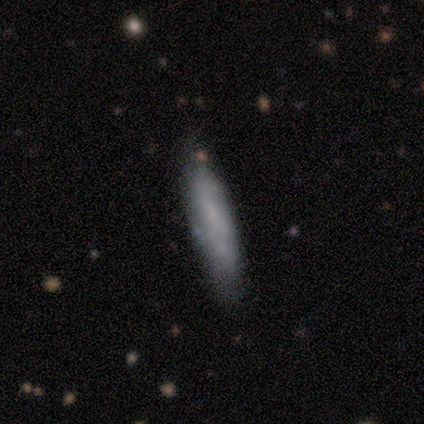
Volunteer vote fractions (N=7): smooth 43% (tied), featured or disk 43% (tied), star or artifact 14%. Down the decision tree: how rounded — cigar-shaped (100%); merging — none (83%).